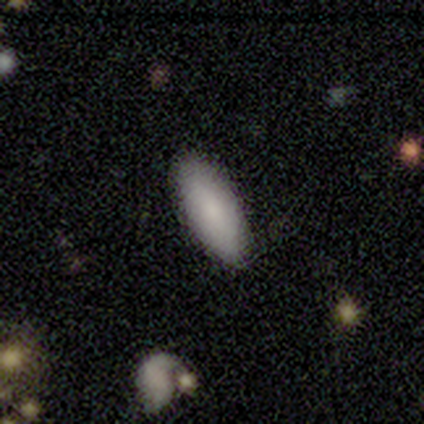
Morphology: type=smooth (100%); roundness=in between (75%); merging=none (75%).